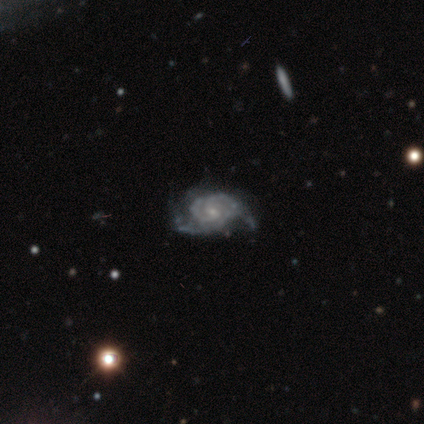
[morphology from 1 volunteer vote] featured or disk 100%, smooth 0%, star or artifact 0%. Down the decision tree: edge-on disk — no (100%); bar — weak (100%); spiral arms — yes (100%); spiral arm count — can't tell (100%); spiral winding — medium (100%); bulge size — small (100%); merging — none (100%).